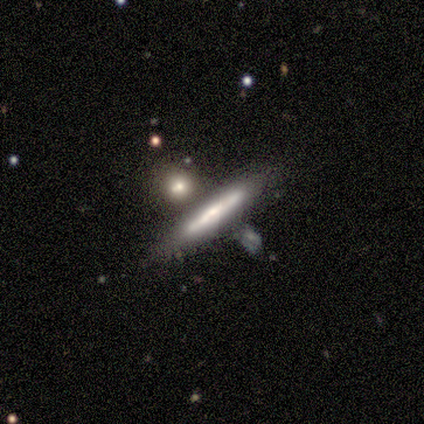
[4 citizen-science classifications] A smooth galaxy with no disk features (75%) that is cigar-shaped (100%).

Vote fractions:
- Smooth or featured? smooth: 75% / featured or disk: 25% / star or artifact: 0%
- How rounded? cigar-shaped: 100% / round: 0% / in between: 0%
- Merging? none: 50% / minor disturbance: 25% / major disturbance: 25% / merger: 0%